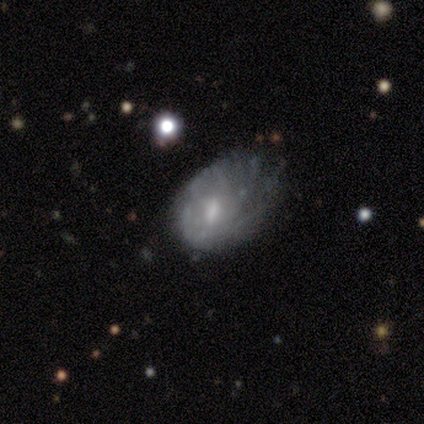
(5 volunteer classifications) This appears to be a featured or disk galaxy (60%) with a strong bar (33%, tied with weak and no), more than 4 (50%, tied with can't tell) tight (50%, tied with loose) spiral arms (67%) and a dominant central bulge (33%, tied with moderate and small). Merging: major disturbance (40%).